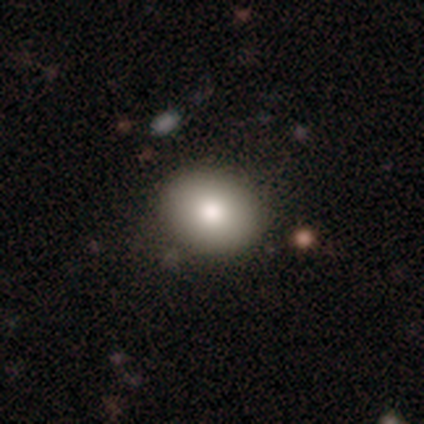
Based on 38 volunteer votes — Smooth or featured? smooth (82%)
How rounded? round (61%)
Merging? none (76%)